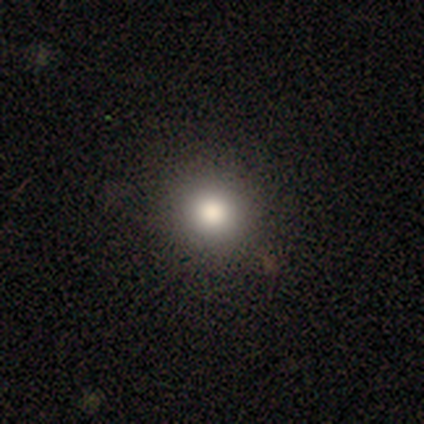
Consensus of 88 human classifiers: smooth_or_featured: smooth (p=0.77) [alt: star or artifact p=0.16]
how_rounded: round (p=0.88) [alt: in between p=0.10]
merging: none (p=0.89) [alt: minor disturbance p=0.07]